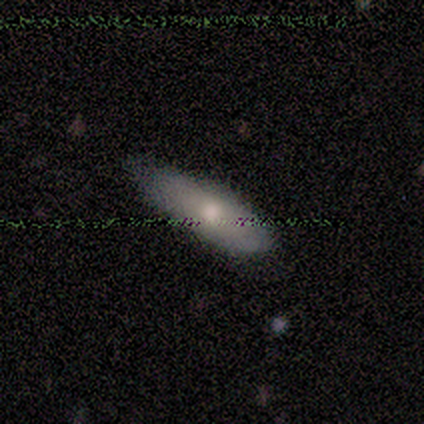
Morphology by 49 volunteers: A smooth galaxy with no disk features (65%) that is in between round and cigar-shaped (66%). Merging: none (51%).